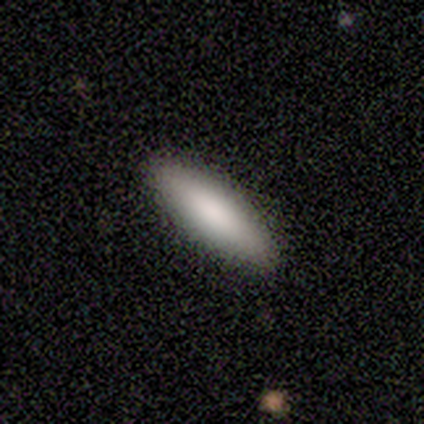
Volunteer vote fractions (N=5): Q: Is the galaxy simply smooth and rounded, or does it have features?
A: smooth — 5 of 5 (100%).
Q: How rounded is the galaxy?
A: cigar-shaped — 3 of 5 (60%).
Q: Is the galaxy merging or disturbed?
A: none — 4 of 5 (80%).